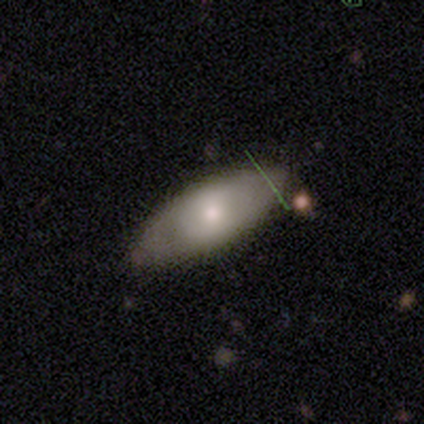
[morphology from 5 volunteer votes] This is likely a featured or disk galaxy (60%). It is clearly not viewed edge-on (100%). Bar: likely no (67%). Spiral arm pattern: clearly no (100%). Central bulge: likely moderate (67%). Merging: clearly none (100%).